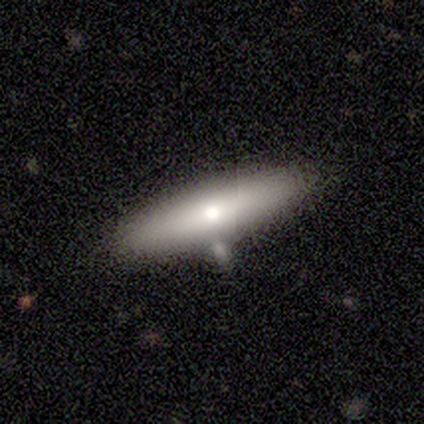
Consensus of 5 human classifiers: Smooth or featured? 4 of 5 (80%) said smooth. How rounded? 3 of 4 (75%) said cigar-shaped. Merging? 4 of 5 (80%) said minor disturbance.